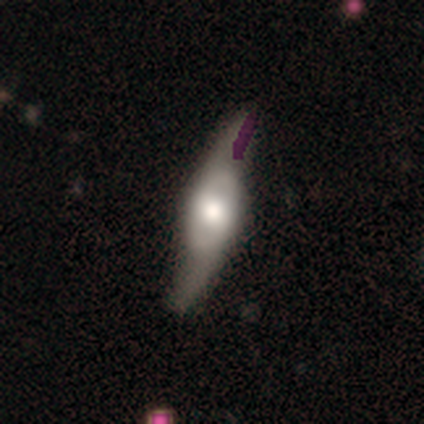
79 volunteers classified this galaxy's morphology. Smooth or featured?
  - featured or disk: 80% *
  - smooth: 14%
  - star or artifact: 6%
Edge-on disk?
  - yes: 51% *
  - no: 49%
Edge-on bulge?
  - rounded: 91% *
  - boxy: 9%
  - none: 0%
Merging?
  - none: 39% *
  - minor disturbance: 9%
  - major disturbance: 3%
  - merger: 1%